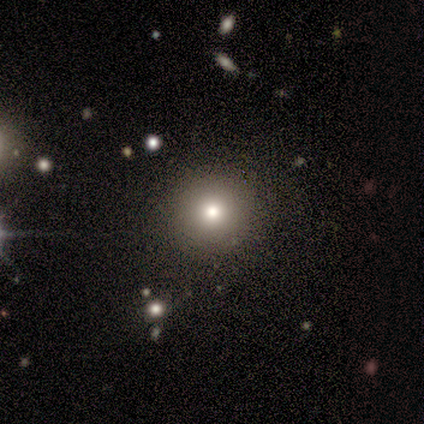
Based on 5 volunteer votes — A smooth galaxy with no disk features (60%) that is round (100%).

Vote fractions:
- Smooth or featured? smooth: 60% / star or artifact: 40% / featured or disk: 0%
- How rounded? round: 100% / in between: 0% / cigar-shaped: 0%
- Merging? none: 100% / minor disturbance: 0% / major disturbance: 0% / merger: 0%